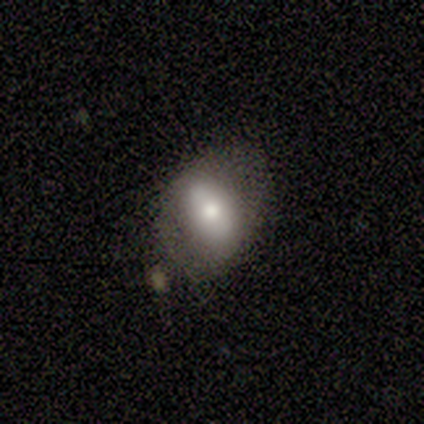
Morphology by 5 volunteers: A smooth galaxy with no disk features (60%) that is in between round and cigar-shaped (67%). Merging: none (40%, tied with minor disturbance).